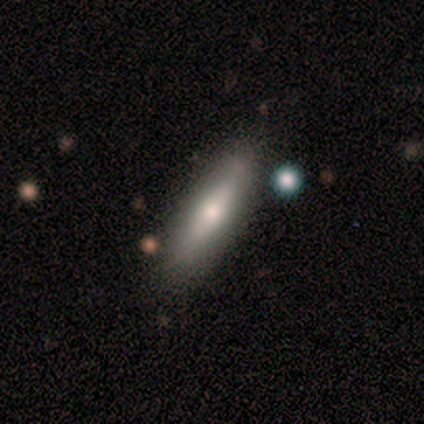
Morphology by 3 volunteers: type=featured or disk (67%); edge-on=yes (100%); edge-on bulge=boxy (50%, tied with none); merging=none (100%).